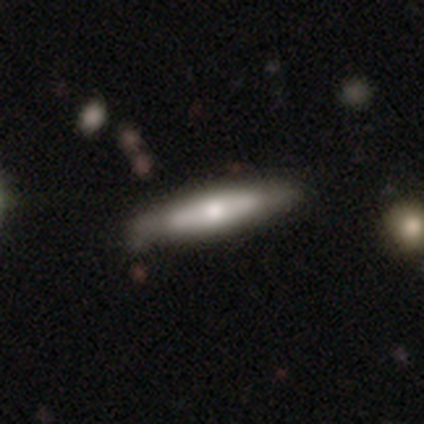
A smooth galaxy with no disk features (75%) that is cigar-shaped (67%).

Vote fractions:
- Smooth or featured? smooth: 75% / star or artifact: 25% / featured or disk: 0%
- How rounded? cigar-shaped: 67% / in between: 33% / round: 0%
- Merging? none: 100% / minor disturbance: 0% / major disturbance: 0% / merger: 0%